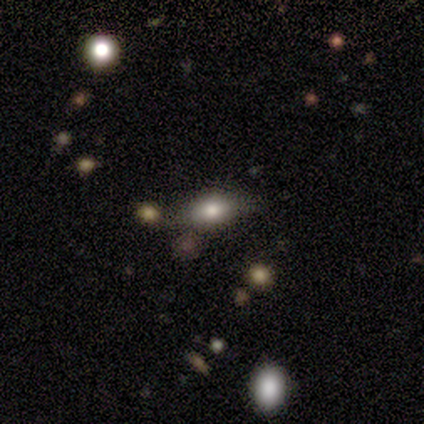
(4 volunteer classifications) Smooth or featured?
  - smooth: 100% *
  - featured or disk: 0%
  - star or artifact: 0%
How rounded?
  - round: 50% *
  - in between: 25%
  - cigar-shaped: 25%
Merging?
  - none: 75% *
  - merger: 25%
  - minor disturbance: 0%
  - major disturbance: 0%